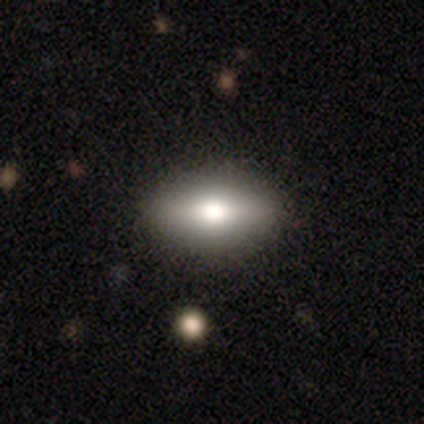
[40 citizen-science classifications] Volunteers were most divided on "smooth or featured": smooth: 55%, featured or disk: 35%, star or artifact: 10%. More confident: how rounded — in between (91%); merging — none (89%).